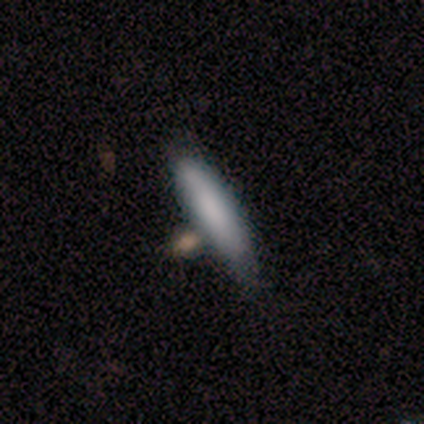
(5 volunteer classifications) Overall: smooth (100%). How rounded: cigar-shaped (80%). Merging: none (100%).